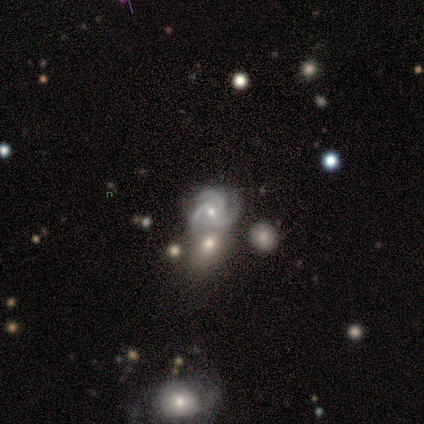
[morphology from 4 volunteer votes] smooth-or-featured: featured or disk: 75% | star or artifact: 25% | smooth: 0%
  disk-edge-on: no: 100% | yes: 0%
    bar: no: 67% | weak: 33% | strong: 0%
    has-spiral-arms: yes: 100% | no: 0%
      spiral-winding: tight: 33% (tied) | medium: 33% (tied) | loose: 33% (tied)
      spiral-arm-count: 3: 67% | 2: 33% | 1: 0% | 4: 0% | more than 4: 0% | can't tell: 0%
    bulge-size: moderate: 67% | small: 33% | dominant: 0% | large: 0% | none: 0%
  merging: merger: 67% | none: 33% | minor disturbance: 0% | major disturbance: 0%